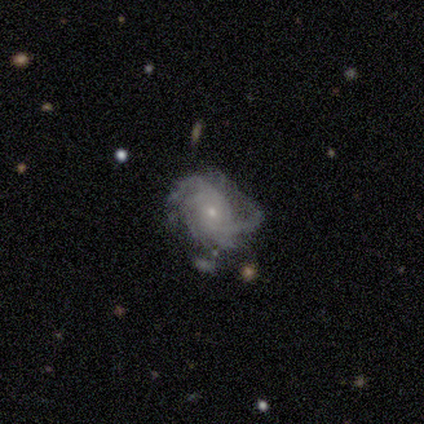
This is likely a featured or disk galaxy (60%). It is clearly not viewed edge-on (100%). Bar: likely no (67%). Spiral arm pattern: clearly yes (100%). Spiral arm count: marginally 3 (33%, tied with 4 and can't tell). Spiral winding: likely medium (67%). Central bulge: clearly small (100%). Merging: possibly merger (50%).